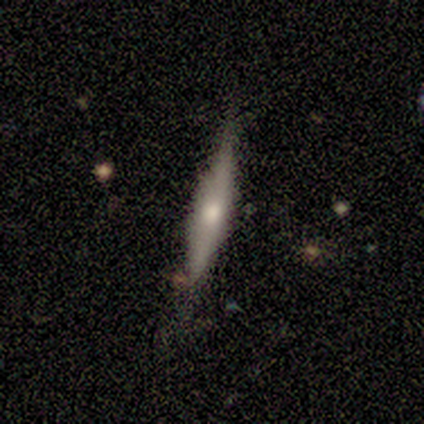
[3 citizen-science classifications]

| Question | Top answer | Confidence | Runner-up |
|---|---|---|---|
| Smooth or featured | featured or disk | 67% | smooth (33%) |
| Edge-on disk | yes | 100% | — |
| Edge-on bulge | rounded | 100% | — |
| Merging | none | 100% | — |